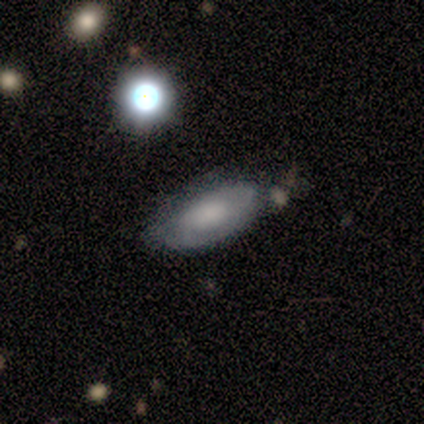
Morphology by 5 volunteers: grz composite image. It shows a smooth galaxy with no disk features (80%) that is in between round and cigar-shaped (75%). Merging: none (60%).